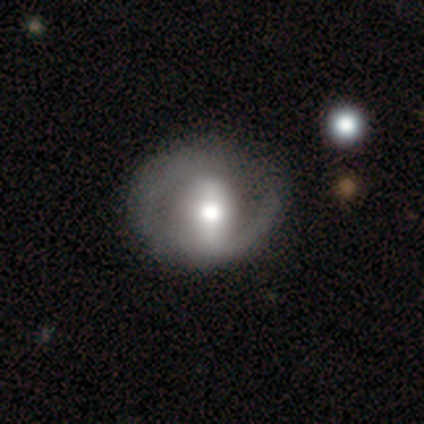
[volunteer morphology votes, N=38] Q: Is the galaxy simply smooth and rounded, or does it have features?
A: featured or disk — 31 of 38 (82%).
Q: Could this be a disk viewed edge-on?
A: no — 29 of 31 (94%).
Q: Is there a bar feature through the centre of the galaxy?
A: strong — 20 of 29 (69%).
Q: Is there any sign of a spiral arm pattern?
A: yes — 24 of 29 (83%).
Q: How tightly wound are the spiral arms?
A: loose — 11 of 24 (46%).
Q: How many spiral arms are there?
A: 2 — 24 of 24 (100%).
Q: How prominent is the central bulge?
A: moderate — 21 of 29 (72%).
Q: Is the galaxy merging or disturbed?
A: none — 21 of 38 (55%).